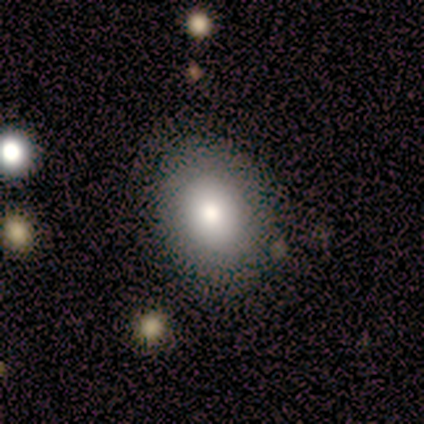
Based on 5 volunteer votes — Overall: smooth (80%). How rounded: in between (75%). Merging: none (50%, tied with minor disturbance).